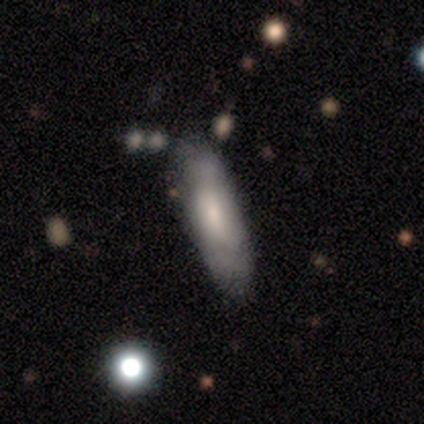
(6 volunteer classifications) smooth-or-featured: featured or disk: 67% | smooth: 33% | star or artifact: 0%
  disk-edge-on: no: 75% | yes: 25%
    bar: weak: 67% | no: 33% | strong: 0%
    has-spiral-arms: no: 67% | yes: 33%
    bulge-size: large: 33% (tied) | moderate: 33% (tied) | small: 33% (tied) | dominant: 0% | none: 0%
  merging: none: 83% | minor disturbance: 17% | major disturbance: 0% | merger: 0%